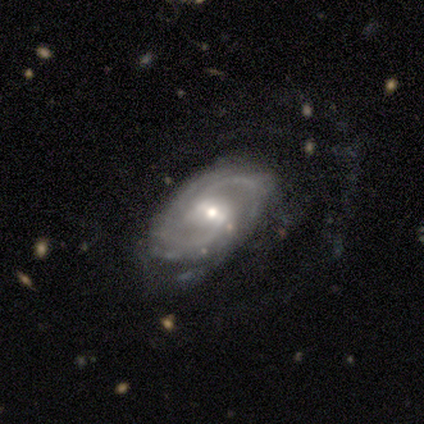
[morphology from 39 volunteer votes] Q: Smooth or featured?
A: featured or disk (87%); runner-up: star or artifact (13%)
Q: Edge-on disk?
A: no (94%); runner-up: yes (6%)
Q: Bar?
A: weak (56%); runner-up: no (25%)
Q: Spiral arms?
A: yes (100%)
Q: Spiral winding?
A: medium (47%); runner-up: tight (41%)
Q: Spiral arm count?
A: 2 (53%); runner-up: can't tell (19%)
Q: Bulge size?
A: moderate (66%); runner-up: small (34%)
Q: Merging?
A: none (68%); runner-up: minor disturbance (18%)